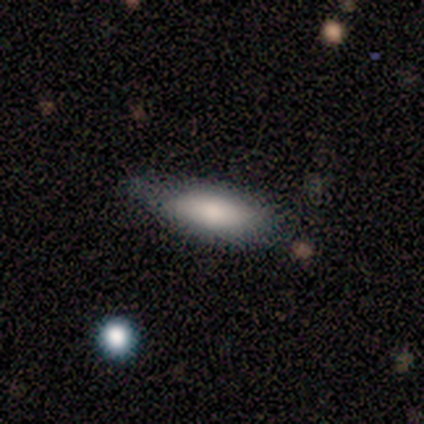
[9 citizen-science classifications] A smooth galaxy with no disk features (78%) that is in between round and cigar-shaped (86%).

Vote fractions:
- Smooth or featured? smooth: 78% / featured or disk: 22% / star or artifact: 0%
- How rounded? in between: 86% / cigar-shaped: 14% / round: 0%
- Merging? none: 89% / major disturbance: 11% / minor disturbance: 0% / merger: 0%